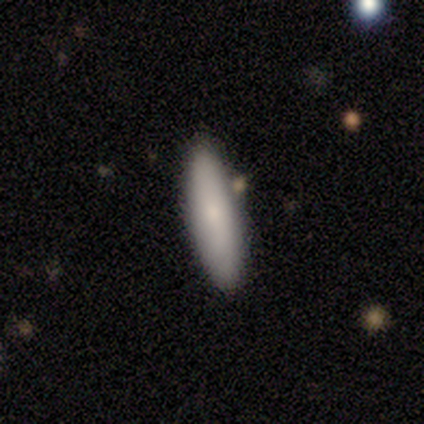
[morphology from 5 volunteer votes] Overall: smooth (100%). How rounded: cigar-shaped (100%). Merging: none (80%).